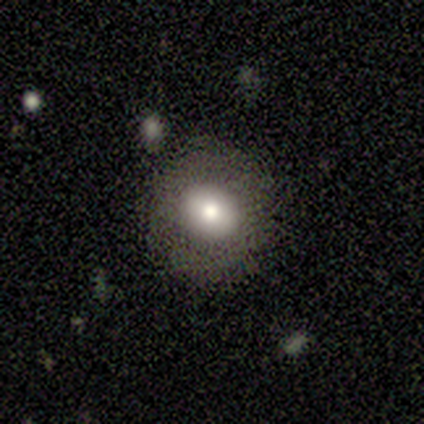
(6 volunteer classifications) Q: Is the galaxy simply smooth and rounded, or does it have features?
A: smooth — 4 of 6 (67%).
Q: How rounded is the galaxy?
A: round — 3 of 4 (75%).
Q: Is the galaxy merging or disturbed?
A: none — 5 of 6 (83%).